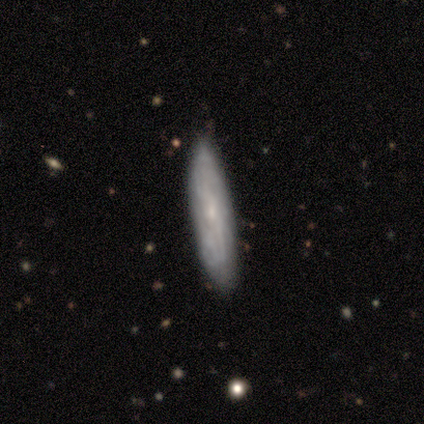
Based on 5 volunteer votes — Overall: featured or disk (80%). Edge-on disk: no (75%). Bar: weak (67%; no 33%). Spiral arms: yes (100%). Spiral arm count: 2 (67%; can't tell 33%). Spiral winding: tight (33%, tied with medium and loose). Bulge size: small (67%; moderate 33%). Merging: none (80%).